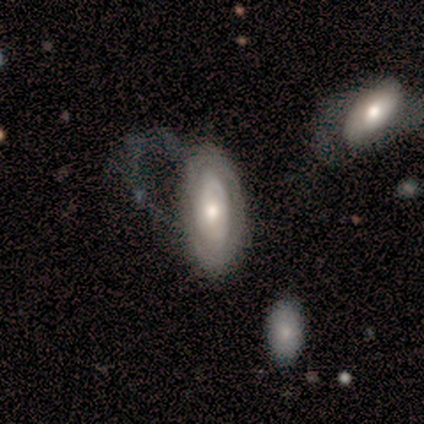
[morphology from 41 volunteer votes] smooth-or-featured: featured or disk: 80% | smooth: 15% | star or artifact: 5%
  disk-edge-on: no: 97% | yes: 3%
    bar: no: 88% | strong: 6% | weak: 6%
    has-spiral-arms: yes: 56% | no: 44%
      spiral-winding: tight: 78% | loose: 17% | medium: 6%
      spiral-arm-count: can't tell: 67% | 2: 28% | 1: 6% | 3: 0% | 4: 0% | more than 4: 0%
    bulge-size: moderate: 81% | large: 9% | small: 9% | dominant: 0% | none: 0%
  merging: major disturbance: 59% | none: 23% | minor disturbance: 13% | merger: 5%